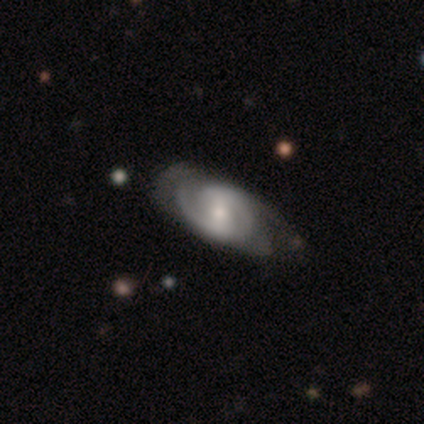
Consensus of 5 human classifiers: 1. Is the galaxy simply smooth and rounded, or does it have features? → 100% featured or disk, 0% smooth, 0% star or artifact.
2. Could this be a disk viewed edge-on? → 100% no, 0% yes.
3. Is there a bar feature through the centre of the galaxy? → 60% weak, 40% no, 0% strong.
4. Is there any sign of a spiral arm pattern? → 100% yes, 0% no.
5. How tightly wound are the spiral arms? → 100% medium, 0% tight, 0% loose.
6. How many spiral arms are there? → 100% 2, 0% 1, 0% 3, 0% 4, 0% more than 4, 0% can't tell.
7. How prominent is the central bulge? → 80% small, 20% moderate, 0% dominant, 0% large, 0% none.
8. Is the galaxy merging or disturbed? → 60% minor disturbance, 40% none, 0% major disturbance, 0% merger.